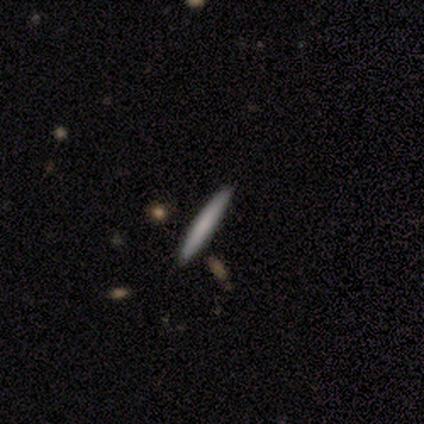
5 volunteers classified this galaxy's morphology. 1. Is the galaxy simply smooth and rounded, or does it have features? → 100% smooth, 0% featured or disk, 0% star or artifact.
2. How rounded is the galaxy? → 100% cigar-shaped, 0% round, 0% in between.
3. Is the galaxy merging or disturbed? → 100% none, 0% minor disturbance, 0% major disturbance, 0% merger.